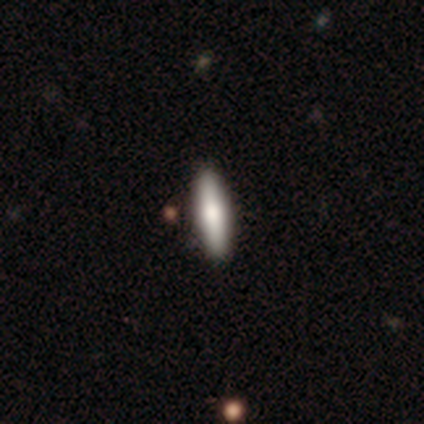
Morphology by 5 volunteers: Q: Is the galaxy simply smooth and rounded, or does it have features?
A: smooth — 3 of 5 (60%).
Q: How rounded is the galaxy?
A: cigar-shaped — 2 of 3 (67%).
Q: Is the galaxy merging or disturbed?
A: none — 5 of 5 (100%).